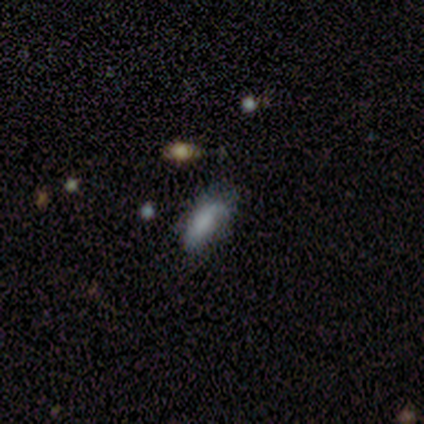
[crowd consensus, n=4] This is possibly a smooth galaxy (50%). How rounded: possibly in between (50%, tied with cigar-shaped). Merging: clearly minor disturbance (100%).